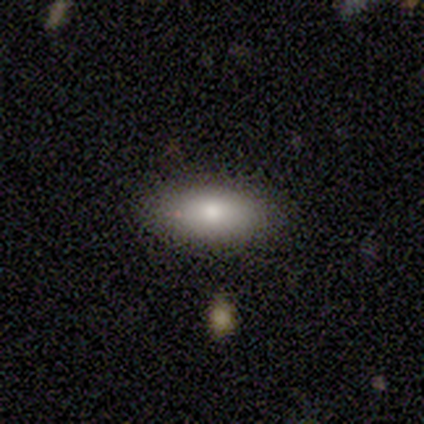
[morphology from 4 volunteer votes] Smooth or featured?
  - smooth: 100% *
  - featured or disk: 0%
  - star or artifact: 0%
How rounded?
  - in between: 75% *
  - cigar-shaped: 25%
  - round: 0%
Merging?
  - none: 100% *
  - minor disturbance: 0%
  - major disturbance: 0%
  - merger: 0%